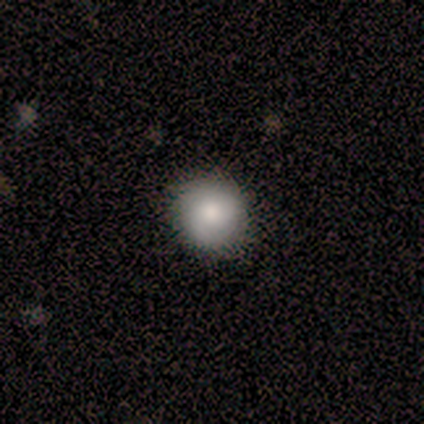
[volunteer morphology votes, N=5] This appears to be a smooth galaxy with no disk features (80%) that is round (100%). Merging: none (60%).